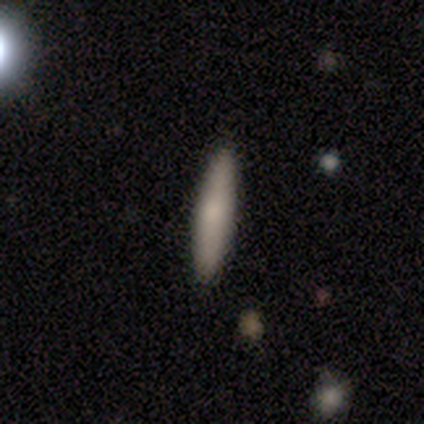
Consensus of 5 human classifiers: Smooth or featured: smooth — 100%
How rounded: cigar-shaped — 100%
Merging: none — 100%